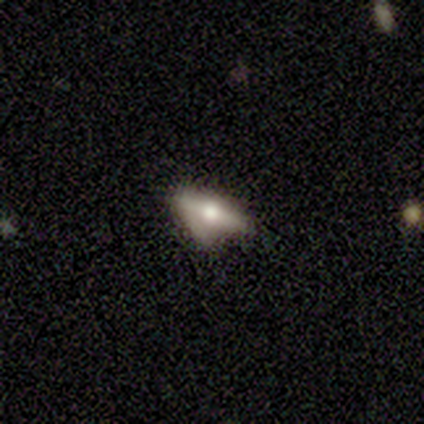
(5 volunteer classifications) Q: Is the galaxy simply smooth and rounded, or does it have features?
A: featured or disk — 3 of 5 (60%).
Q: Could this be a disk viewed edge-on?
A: yes — 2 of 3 (67%).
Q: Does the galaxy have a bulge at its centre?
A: rounded — 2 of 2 (100%).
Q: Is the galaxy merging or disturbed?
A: minor disturbance — 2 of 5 (40%, tied with major disturbance).